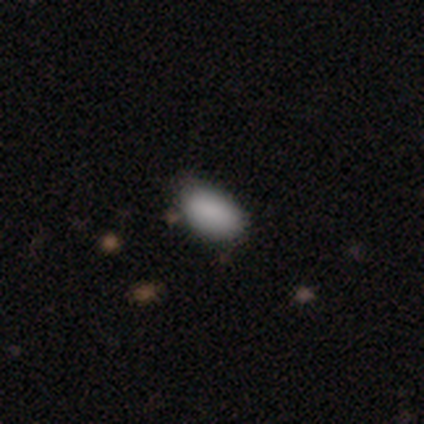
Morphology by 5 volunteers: Smooth or featured?
  - smooth: 80% *
  - star or artifact: 20%
  - featured or disk: 0%
How rounded?
  - in between: 100% *
  - round: 0%
  - cigar-shaped: 0%
Merging?
  - none: 100% *
  - minor disturbance: 0%
  - major disturbance: 0%
  - merger: 0%